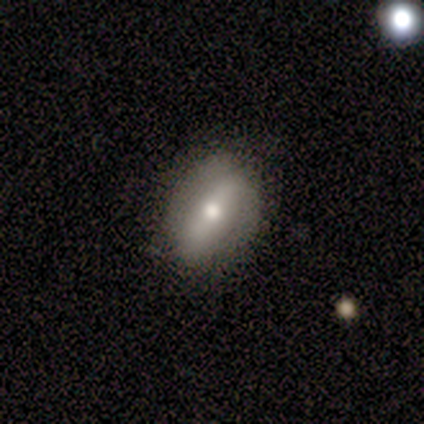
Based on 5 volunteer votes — Smooth or featured?
  - featured or disk: 60% *
  - smooth: 40%
  - star or artifact: 0%
Edge-on disk?
  - no: 67% *
  - yes: 33%
Bar?
  - strong: 100% *
  - weak: 0%
  - no: 0%
Spiral arms?
  - yes: 50% * (tied)
  - no: 50% * (tied)
Spiral winding?
  - medium: 100% *
  - tight: 0%
  - loose: 0%
Spiral arm count?
  - 2: 100% *
  - 1: 0%
  - 3: 0%
  - 4: 0%
  - more than 4: 0%
  - can't tell: 0%
Bulge size?
  - moderate: 100% *
  - dominant: 0%
  - large: 0%
  - small: 0%
  - none: 0%
Merging?
  - none: 80% *
  - minor disturbance: 20%
  - major disturbance: 0%
  - merger: 0%